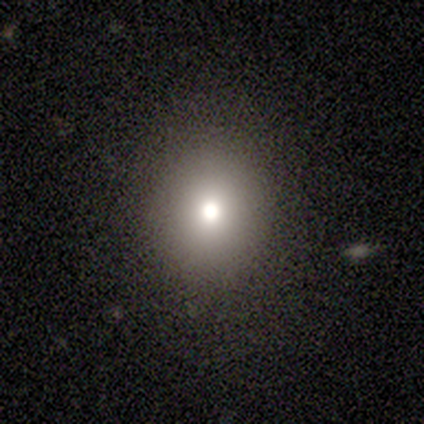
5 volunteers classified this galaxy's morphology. smooth_or_featured: smooth (p=0.60) [alt: featured or disk p=0.40]
how_rounded: round (p=1.00)
merging: none (p=1.00)